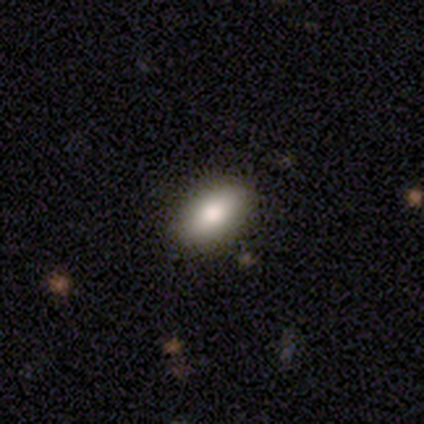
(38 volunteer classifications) Smooth or featured? smooth (82%)
How rounded? in between (100%)
Merging? none (91%)